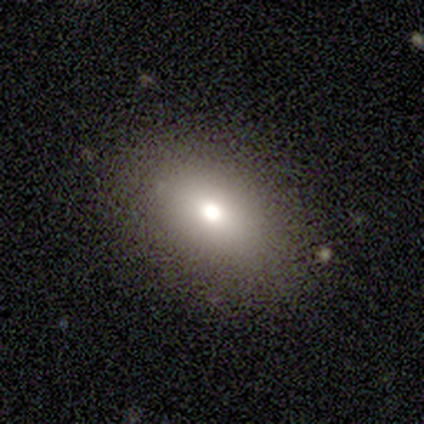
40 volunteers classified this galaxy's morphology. type=smooth (70%); roundness=in between (93%); merging=none (85%).